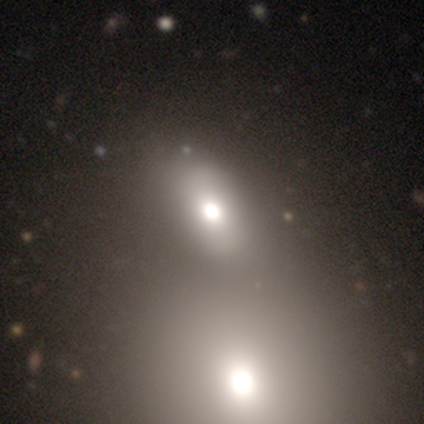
smooth 54%, featured or disk 26%, star or artifact 21%. Down the decision tree: how rounded — in between (90%); merging — merger (39%).